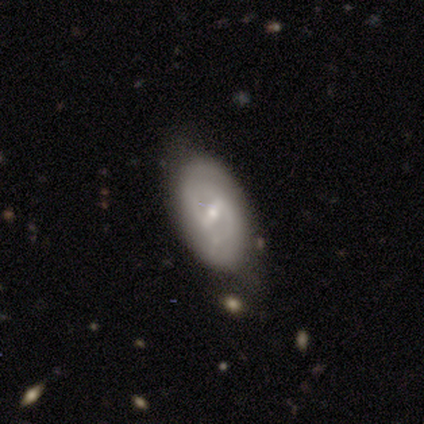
This is clearly a featured or disk galaxy (80%). It is clearly not viewed edge-on (100%). Bar: likely weak (75%). Spiral arm pattern: likely no (75%). Central bulge: possibly moderate (50%, tied with small). Merging: likely minor disturbance (60%).